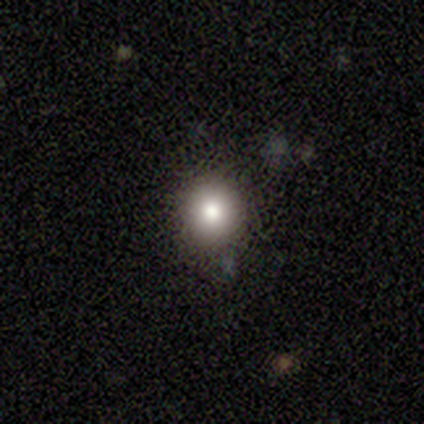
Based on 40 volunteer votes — A smooth galaxy with no disk features (75%) that is round (83%). Merging: none (84%).